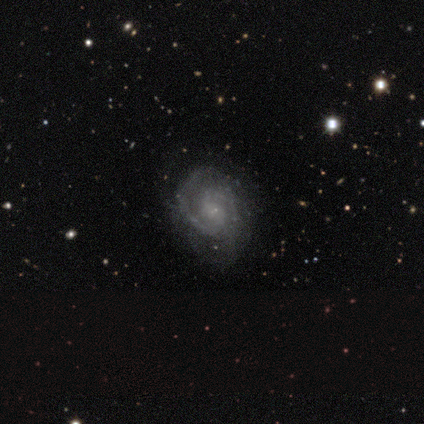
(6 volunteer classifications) Q: Smooth or featured?
A: featured or disk (100%)
Q: Edge-on disk?
A: no (83%); runner-up: yes (17%)
Q: Bar?
A: no (80%); runner-up: strong (20%)
Q: Spiral arms?
A: yes (100%)
Q: Spiral winding?
A: tight (60%); runner-up: medium (40%)
Q: Spiral arm count?
A: 2 (100%)
Q: Bulge size?
A: small (60%); runner-up: none (40%)
Q: Merging?
A: none (67%); runner-up: minor disturbance (33%)